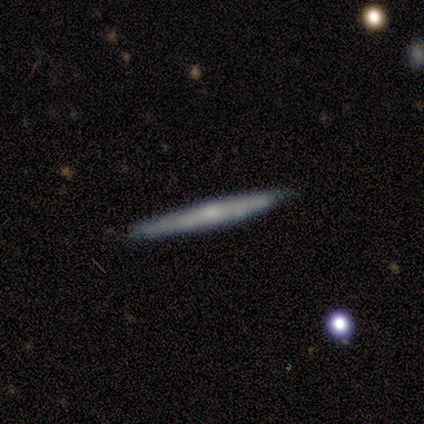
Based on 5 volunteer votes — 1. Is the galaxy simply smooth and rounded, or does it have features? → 60% featured or disk, 40% smooth, 0% star or artifact.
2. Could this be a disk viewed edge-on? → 100% yes, 0% no.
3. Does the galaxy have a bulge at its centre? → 67% none, 33% rounded, 0% boxy.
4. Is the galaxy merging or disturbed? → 60% none, 20% minor disturbance, 20% major disturbance, 0% merger.